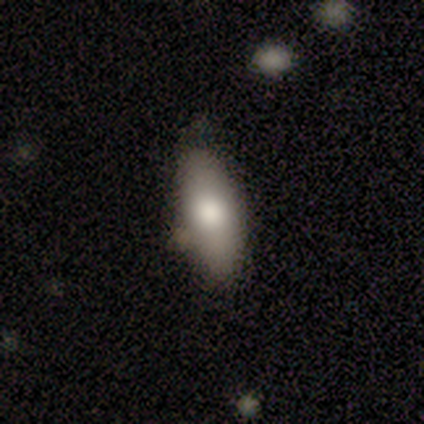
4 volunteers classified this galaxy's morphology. This appears to be a smooth galaxy with no disk features (100%) that is in between round and cigar-shaped (50%, tied with cigar-shaped). Merging: none (75%).